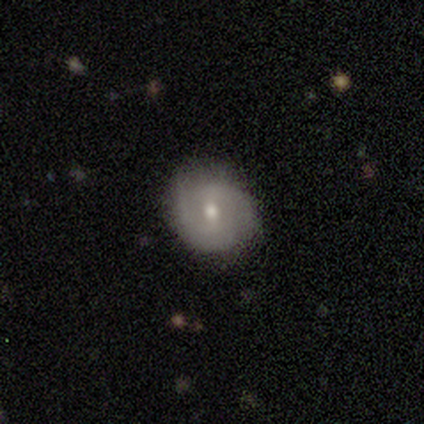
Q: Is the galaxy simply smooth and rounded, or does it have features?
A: smooth — 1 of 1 (100%).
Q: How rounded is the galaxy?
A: in between — 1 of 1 (100%).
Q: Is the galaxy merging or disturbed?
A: none — 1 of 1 (100%).